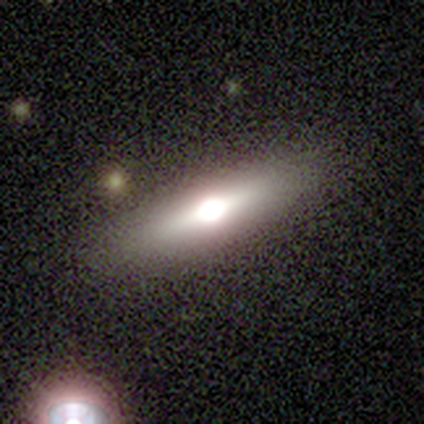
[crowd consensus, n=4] smooth-or-featured: featured or disk: 100% | smooth: 0% | star or artifact: 0%
  disk-edge-on: yes: 100% | no: 0%
    edge-on-bulge: rounded: 100% | boxy: 0% | none: 0%
  merging: none: 100% | minor disturbance: 0% | major disturbance: 0% | merger: 0%